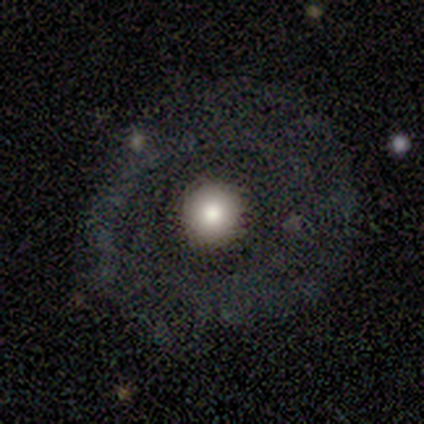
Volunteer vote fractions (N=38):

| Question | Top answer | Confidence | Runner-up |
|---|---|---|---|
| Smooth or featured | smooth | 45% | featured or disk (42%) |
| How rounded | round | 94% | in between (6%) |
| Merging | none | 76% | major disturbance (15%) |